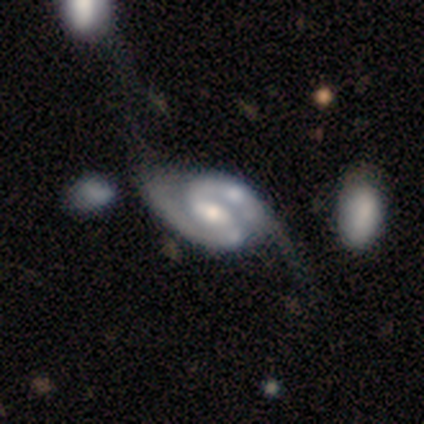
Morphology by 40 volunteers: smooth_or_featured: featured or disk (p=1.00)
disk_edge_on: no (p=1.00)
bar: weak (p=0.45) [alt: strong p=0.28]
has_spiral_arms: yes (p=0.97) [alt: no p=0.03]
spiral_winding: medium (p=0.49) [alt: loose p=0.31]
spiral_arm_count: 2 (p=0.95) [alt: 3 p=0.03]
bulge_size: moderate (p=0.55) [alt: small p=0.38]
merging: none (p=0.25) [alt: major disturbance p=0.20]